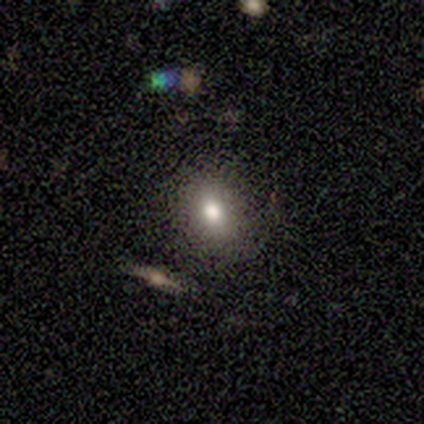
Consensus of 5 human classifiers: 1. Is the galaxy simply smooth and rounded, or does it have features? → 100% smooth, 0% featured or disk, 0% star or artifact.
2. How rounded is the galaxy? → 80% in between, 20% round, 0% cigar-shaped.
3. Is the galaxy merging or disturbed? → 100% none, 0% minor disturbance, 0% major disturbance, 0% merger.